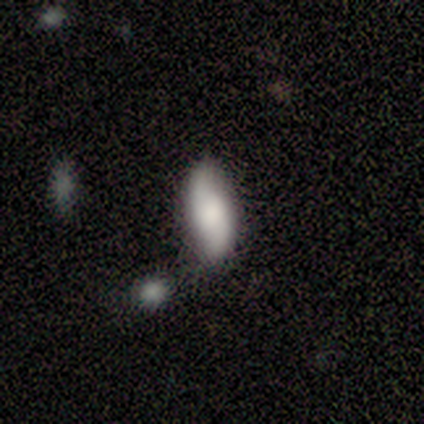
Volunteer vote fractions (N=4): Smooth or featured: smooth — 75% (featured or disk — 25%)
How rounded: in between — 100%
Merging: none — 75% (minor disturbance — 25%)